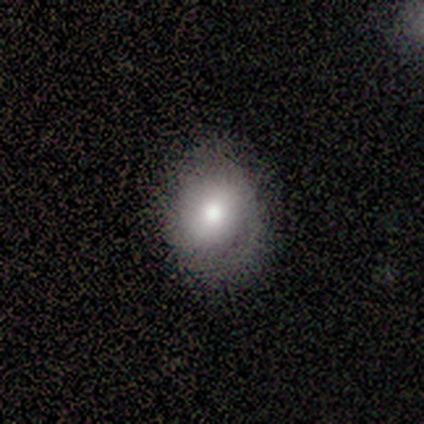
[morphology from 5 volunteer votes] Smooth or featured?
  - featured or disk: 60% *
  - smooth: 40%
  - star or artifact: 0%
Edge-on disk?
  - no: 100% *
  - yes: 0%
Bar?
  - strong: 33% * (tied)
  - weak: 33% * (tied)
  - no: 33% * (tied)
Spiral arms?
  - yes: 67% *
  - no: 33%
Spiral winding?
  - tight: 50% * (tied)
  - medium: 50% * (tied)
  - loose: 0%
Spiral arm count?
  - 1: 50% * (tied)
  - 2: 50% * (tied)
  - 3: 0%
  - 4: 0%
  - more than 4: 0%
  - can't tell: 0%
Bulge size?
  - moderate: 100% *
  - dominant: 0%
  - large: 0%
  - small: 0%
  - none: 0%
Merging?
  - minor disturbance: 60% *
  - none: 40%
  - major disturbance: 0%
  - merger: 0%